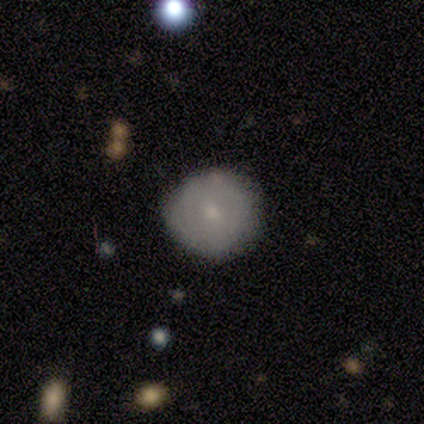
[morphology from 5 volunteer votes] Smooth or featured? smooth (60%)
How rounded? round (100%)
Merging? none (100%)